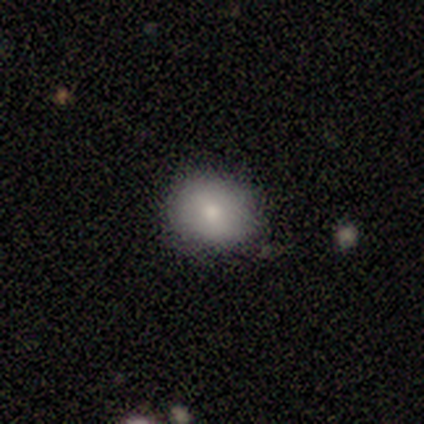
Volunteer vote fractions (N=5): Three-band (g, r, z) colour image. It shows a smooth galaxy with no disk features (60%) that is in between round and cigar-shaped (67%). Merging: none (75%).